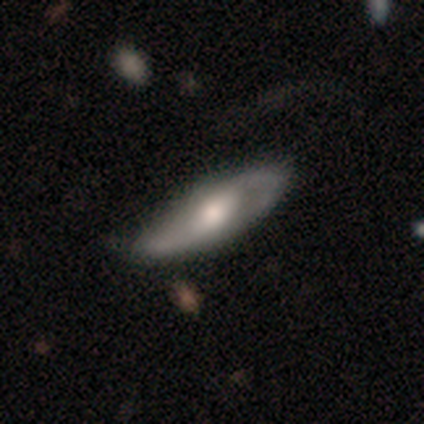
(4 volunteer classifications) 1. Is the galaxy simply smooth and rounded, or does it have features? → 50% smooth (tied), 50% featured or disk (tied), 0% star or artifact.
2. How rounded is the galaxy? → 50% in between (tied), 50% cigar-shaped (tied), 0% round.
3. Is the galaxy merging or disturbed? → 50% none, 25% minor disturbance, 25% major disturbance, 0% merger.